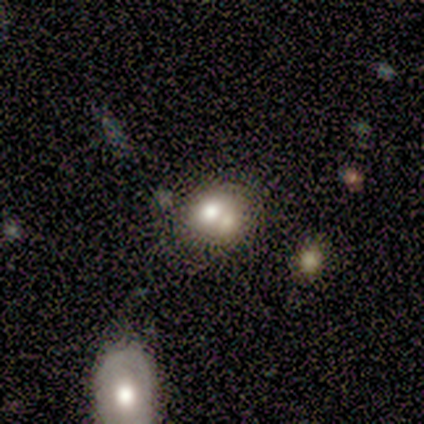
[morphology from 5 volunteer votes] smooth-or-featured: smooth: 60% | featured or disk: 20% | star or artifact: 20%
  how-rounded: round: 67% | in between: 33% | cigar-shaped: 0%
  merging: merger: 75% | minor disturbance: 25% | none: 0% | major disturbance: 0%